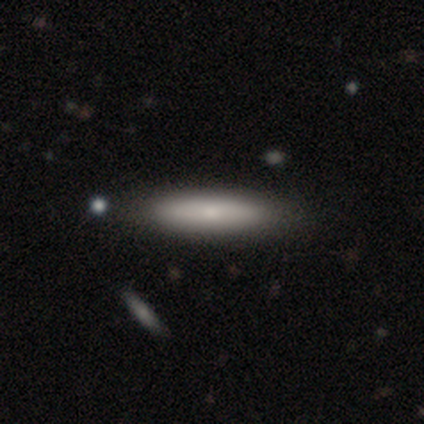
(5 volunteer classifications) Volunteers were most divided on "smooth or featured": featured or disk: 60%, smooth: 40%, star or artifact: 0%. More confident: edge-on bulge — rounded (100%); merging — none (100%); edge-on disk — yes (67%).